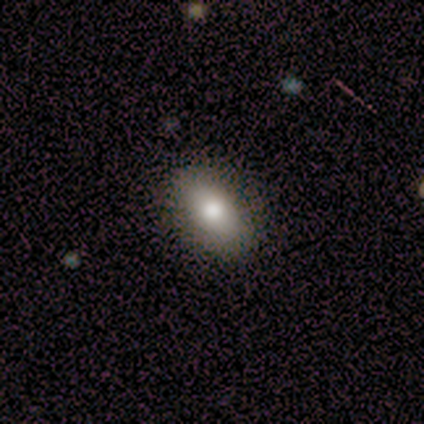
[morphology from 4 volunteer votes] type=smooth (50%, tied with featured or disk); roundness=in between (100%); merging=none (100%).